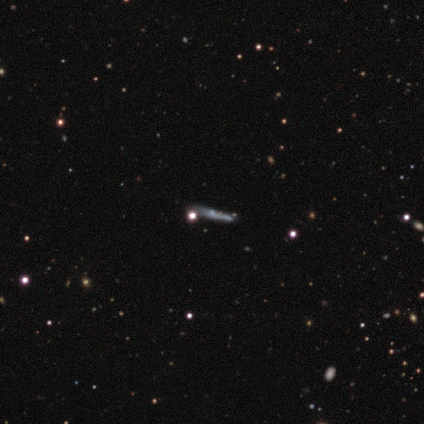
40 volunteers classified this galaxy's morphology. Smooth or featured? 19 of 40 (48%) said featured or disk. Edge-on disk? 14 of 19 (74%) said yes. Edge-on bulge? 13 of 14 (93%) said none. Merging? 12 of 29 (41%) said none.